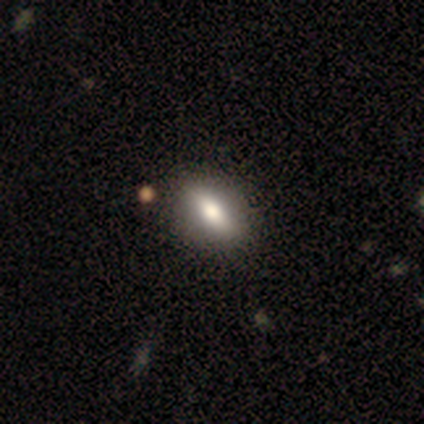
A smooth galaxy with no disk features (50%) that is round (100%).

Vote fractions:
- Smooth or featured? smooth: 50% / featured or disk: 25% / star or artifact: 25%
- How rounded? round: 100% / in between: 0% / cigar-shaped: 0%
- Merging? none: 100% / minor disturbance: 0% / major disturbance: 0% / merger: 0%